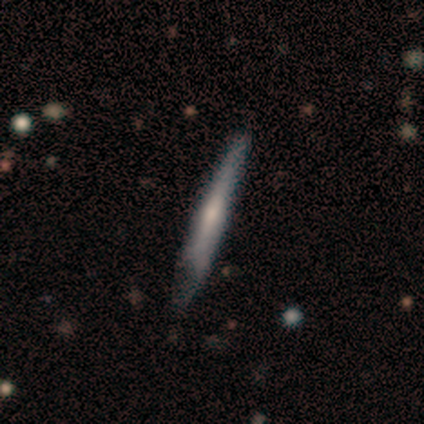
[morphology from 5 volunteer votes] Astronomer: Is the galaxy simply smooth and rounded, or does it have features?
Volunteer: featured or disk — 60% (runner-up: smooth, 40%).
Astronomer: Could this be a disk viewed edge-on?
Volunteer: yes — 100%.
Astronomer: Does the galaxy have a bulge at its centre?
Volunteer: none — 100%.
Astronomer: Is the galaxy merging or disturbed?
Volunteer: none — 80%.